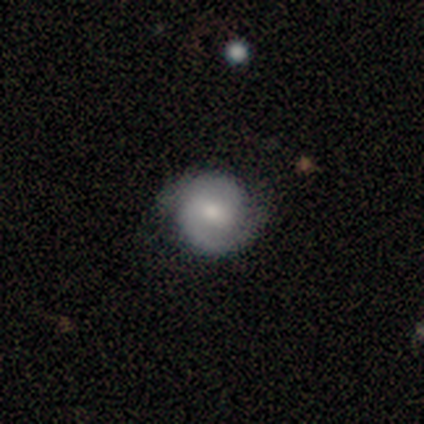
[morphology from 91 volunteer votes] Q: Smooth or featured?
A: featured or disk (69%); runner-up: smooth (26%)
Q: Edge-on disk?
A: no (98%); runner-up: yes (2%)
Q: Bar?
A: weak (52%); runner-up: no (34%)
Q: Spiral arms?
A: yes (94%); runner-up: no (6%)
Q: Spiral winding?
A: tight (50%); runner-up: medium (36%)
Q: Spiral arm count?
A: 2 (91%); runner-up: 1 (7%)
Q: Bulge size?
A: moderate (60%); runner-up: small (31%)
Q: Merging?
A: none (78%); runner-up: minor disturbance (17%)